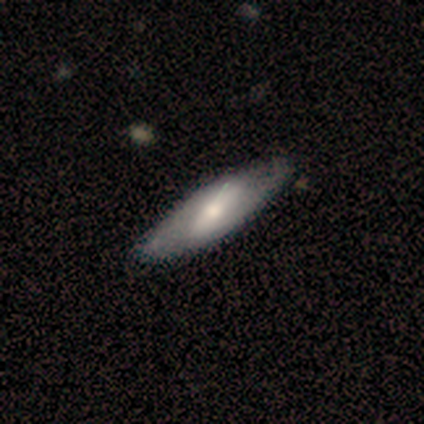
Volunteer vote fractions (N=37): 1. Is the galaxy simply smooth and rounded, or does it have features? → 65% featured or disk, 35% smooth, 0% star or artifact.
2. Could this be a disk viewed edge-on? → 75% no, 25% yes.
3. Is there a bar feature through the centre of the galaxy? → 44% strong, 28% weak, 28% no.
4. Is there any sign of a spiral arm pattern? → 56% no, 44% yes.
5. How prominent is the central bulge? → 67% moderate, 22% small, 6% dominant, 6% large, 0% none.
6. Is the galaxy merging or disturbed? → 51% none, 11% minor disturbance, 3% major disturbance, 0% merger.